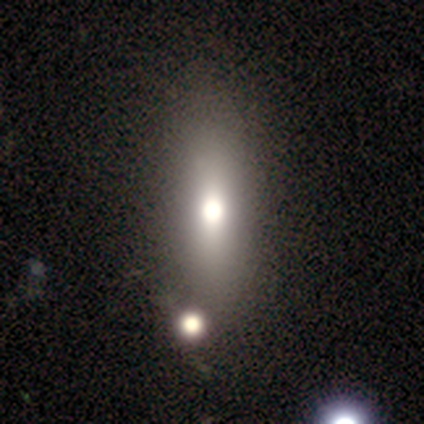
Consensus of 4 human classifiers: Overall: star or artifact (50%; smooth 25%).